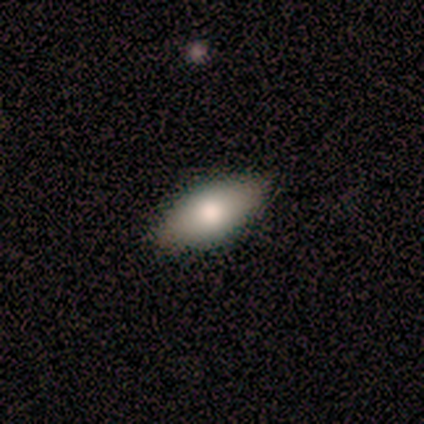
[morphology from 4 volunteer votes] Smooth or featured?
  - smooth: 75% *
  - featured or disk: 25%
  - star or artifact: 0%
How rounded?
  - in between: 100% *
  - round: 0%
  - cigar-shaped: 0%
Merging?
  - none: 75% *
  - major disturbance: 25%
  - minor disturbance: 0%
  - merger: 0%